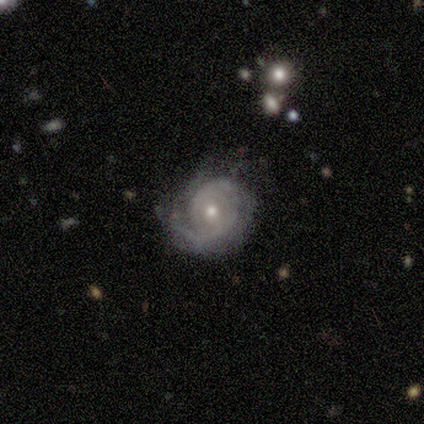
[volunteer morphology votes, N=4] Smooth or featured?
  - featured or disk: 100% *
  - smooth: 0%
  - star or artifact: 0%
Edge-on disk?
  - no: 100% *
  - yes: 0%
Bar?
  - no: 100% *
  - strong: 0%
  - weak: 0%
Spiral arms?
  - yes: 100% *
  - no: 0%
Spiral winding?
  - tight: 75% *
  - medium: 25%
  - loose: 0%
Spiral arm count?
  - can't tell: 75% *
  - 1: 25%
  - 2: 0%
  - 3: 0%
  - 4: 0%
  - more than 4: 0%
Bulge size?
  - moderate: 75% *
  - small: 25%
  - dominant: 0%
  - large: 0%
  - none: 0%
Merging?
  - none: 75% *
  - minor disturbance: 25%
  - major disturbance: 0%
  - merger: 0%